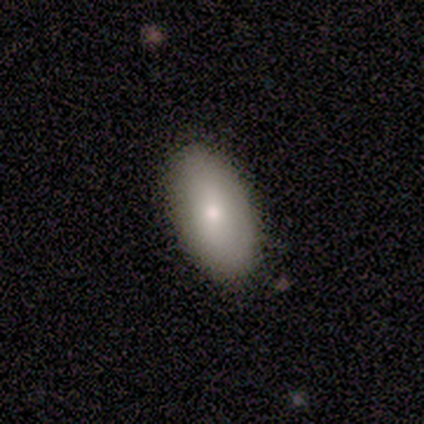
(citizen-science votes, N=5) smooth_or_featured: smooth (p=0.80) [alt: featured or disk p=0.20]
how_rounded: in between (p=1.00)
merging: none (p=1.00)